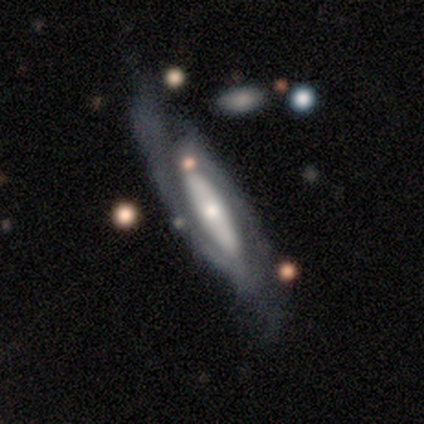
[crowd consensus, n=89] This is clearly a featured or disk galaxy (87%). It is likely not viewed edge-on (74%). Bar: marginally no (40%). Spiral arm pattern: clearly yes (84%). Spiral arm count: likely 2 (69%). Spiral winding: possibly medium (46%). Central bulge: possibly small (54%). Merging: likely none (60%).